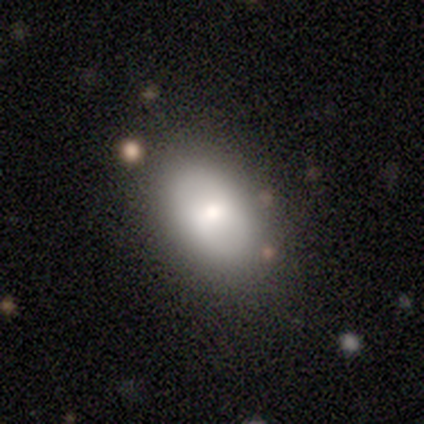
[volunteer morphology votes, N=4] type=smooth (75%); roundness=in between (100%); merging=none (50%, tied with minor disturbance).